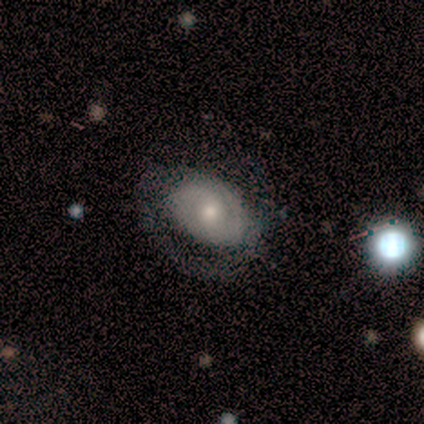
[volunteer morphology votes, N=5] A featured or disk galaxy (60%) with no bar (100%), 2 (50%, tied with can't tell) medium (50%, tied with loose) spiral arms (67%) and a small central bulge (67%).

Vote fractions:
- Smooth or featured? featured or disk: 60% / smooth: 20% / star or artifact: 20%
- Edge-on disk? no: 100% / yes: 0%
- Bar? no: 100% / strong: 0% / weak: 0%
- Spiral arms? yes: 67% / no: 33%
- Spiral winding? medium: 50% (tied) / loose: 50% (tied) / tight: 0%
- Spiral arm count? 2: 50% (tied) / can't tell: 50% (tied) / 1: 0% / 3: 0% / 4: 0% / more than 4: 0%
- Bulge size? small: 67% / moderate: 33% / dominant: 0% / large: 0% / none: 0%
- Merging? none: 50% / minor disturbance: 25% / major disturbance: 25% / merger: 0%